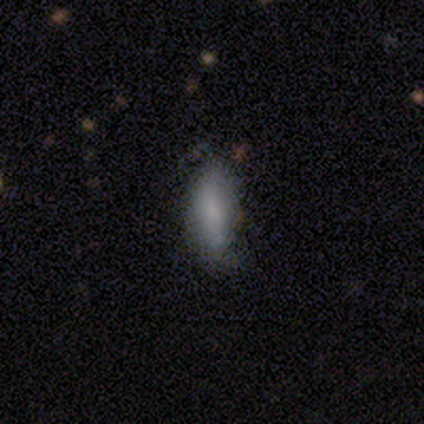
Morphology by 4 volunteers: A smooth galaxy with no disk features (75%) that is cigar-shaped (67%).

Vote fractions:
- Smooth or featured? smooth: 75% / featured or disk: 25% / star or artifact: 0%
- How rounded? cigar-shaped: 67% / in between: 33% / round: 0%
- Merging? minor disturbance: 50% / none: 25% / major disturbance: 25% / merger: 0%